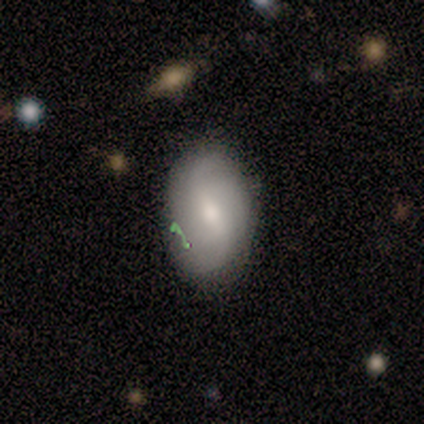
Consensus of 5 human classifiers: Q: Smooth or featured?
A: featured or disk (60%); runner-up: smooth (20%)
Q: Edge-on disk?
A: no (100%)
Q: Bar?
A: weak (67%); runner-up: no (33%)
Q: Spiral arms?
A: yes (67%); runner-up: no (33%)
Q: Spiral winding?
A: tight (50%); tied with: loose (50%)
Q: Spiral arm count?
A: 2 (50%); tied with: can't tell (50%)
Q: Bulge size?
A: moderate (67%); runner-up: small (33%)
Q: Merging?
A: none (75%); runner-up: minor disturbance (25%)